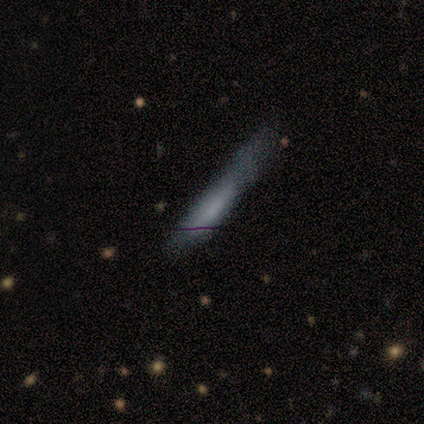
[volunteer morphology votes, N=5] type=smooth (100%); roundness=cigar-shaped (100%); merging=none (60%).